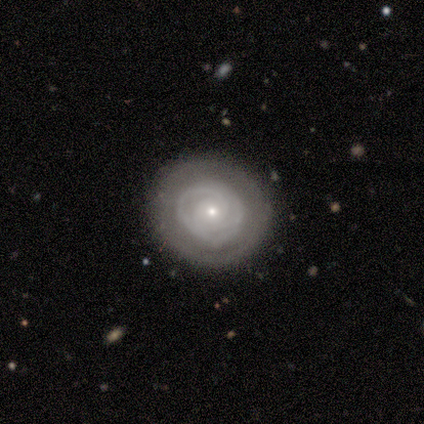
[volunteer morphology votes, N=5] type=featured or disk (100%); edge-on=no (100%); bar=no (100%); spiral arms=yes (60%); winding=tight (67%); arm count=2 (67%); bulge=small (100%); merging=none (100%).